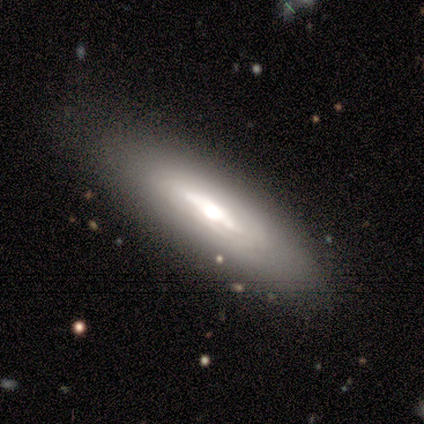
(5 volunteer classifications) Q: Smooth or featured?
A: featured or disk (60%); runner-up: smooth (40%)
Q: Edge-on disk?
A: no (67%); runner-up: yes (33%)
Q: Bar?
A: weak (50%); tied with: no (50%)
Q: Spiral arms?
A: yes (50%); tied with: no (50%)
Q: Spiral winding?
A: tight (100%)
Q: Spiral arm count?
A: can't tell (100%)
Q: Bulge size?
A: dominant (50%); tied with: large (50%)
Q: Merging?
A: none (60%); runner-up: minor disturbance (40%)